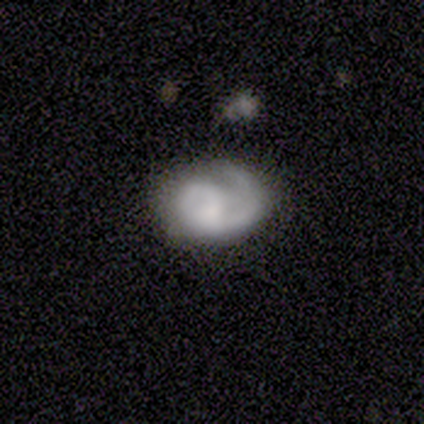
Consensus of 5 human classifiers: Overall: featured or disk (60%; smooth 40%). Edge-on disk: no (100%). Bar: no (100%). Spiral arms: yes (100%). Spiral arm count: 1 (33%, tied with 2 and 3). Spiral winding: loose (67%; medium 33%). Bulge size: small (67%; moderate 33%). Merging: none (60%; minor disturbance 20%).